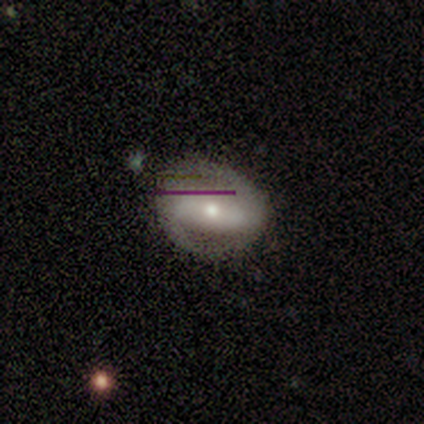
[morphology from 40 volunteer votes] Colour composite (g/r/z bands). It shows a featured or disk galaxy (70%) with a strong bar (70%), 2 (100%) medium (61%) spiral arms (85%) and a moderate central bulge (59%). Merging: none (83%).